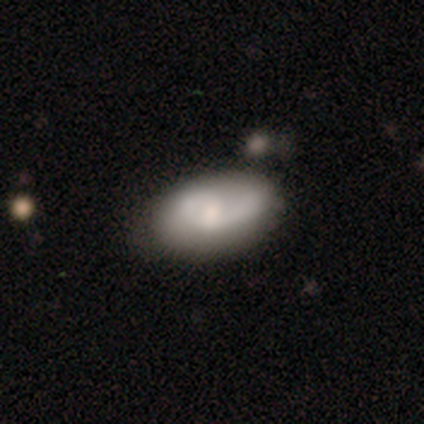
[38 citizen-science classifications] Smooth or featured? featured or disk (50%)
Edge-on disk? no (100%)
Bar? no (58%)
Spiral arms? yes (58%)
Spiral winding? loose (45%)
Spiral arm count? 2 (45%)
Bulge size? small (42%)
Merging? none (63%)